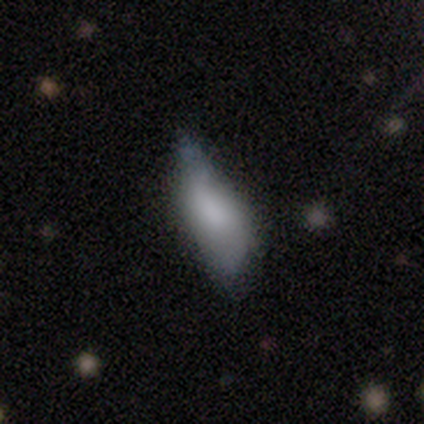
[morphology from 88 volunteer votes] A smooth galaxy with no disk features (73%) that is in between round and cigar-shaped (62%).

Vote fractions:
- Smooth or featured? smooth: 73% / featured or disk: 22% / star or artifact: 6%
- How rounded? in between: 62% / cigar-shaped: 38% / round: 0%
- Merging? minor disturbance: 52% / none: 28% / major disturbance: 19% / merger: 1%